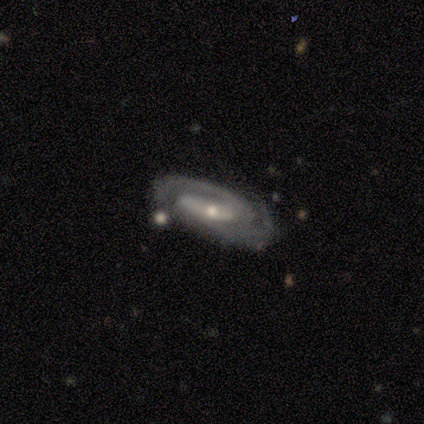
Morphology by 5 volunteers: smooth-or-featured: featured or disk: 100% | smooth: 0% | star or artifact: 0%
  disk-edge-on: no: 100% | yes: 0%
    bar: strong: 60% | weak: 40% | no: 0%
    has-spiral-arms: yes: 100% | no: 0%
      spiral-winding: tight: 60% | medium: 40% | loose: 0%
      spiral-arm-count: 2: 100% | 1: 0% | 3: 0% | 4: 0% | more than 4: 0% | can't tell: 0%
    bulge-size: small: 80% | moderate: 20% | dominant: 0% | large: 0% | none: 0%
  merging: none: 80% | major disturbance: 20% | minor disturbance: 0% | merger: 0%